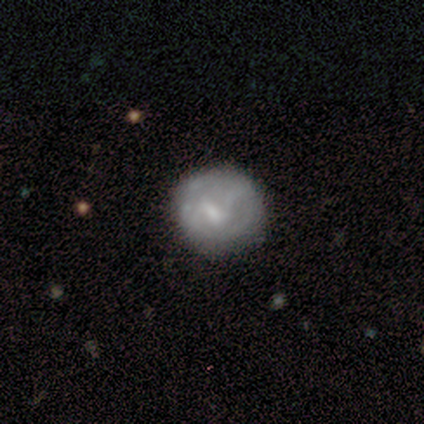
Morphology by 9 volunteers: This appears to be a smooth galaxy with no disk features (56%) that is round (100%). Merging: none (88%).